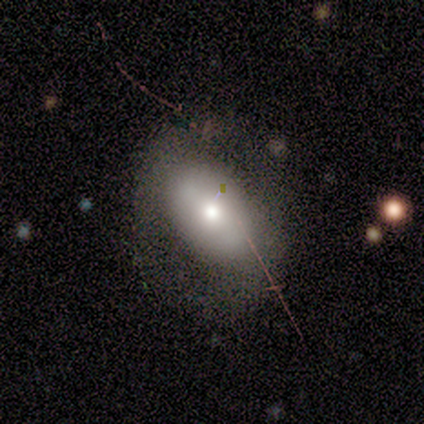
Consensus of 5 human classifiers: This appears to be a smooth galaxy with no disk features (60%) that is round (67%). Merging: none (80%).